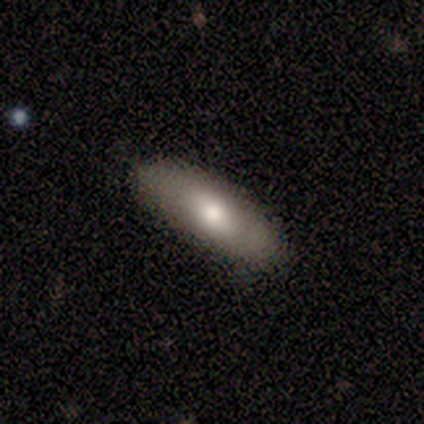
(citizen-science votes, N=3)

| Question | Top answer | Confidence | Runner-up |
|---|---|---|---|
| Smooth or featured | smooth | 33% | tied: featured or disk (33%), star or artifact (33%) |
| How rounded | in between | 100% | — |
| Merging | none | 100% | — |